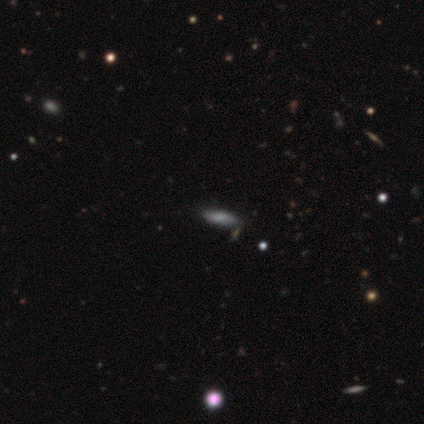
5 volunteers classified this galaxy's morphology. Smooth or featured?
  - smooth: 80% *
  - star or artifact: 20%
  - featured or disk: 0%
How rounded?
  - in between: 100% *
  - round: 0%
  - cigar-shaped: 0%
Merging?
  - none: 50% * (tied)
  - merger: 50% * (tied)
  - minor disturbance: 0%
  - major disturbance: 0%